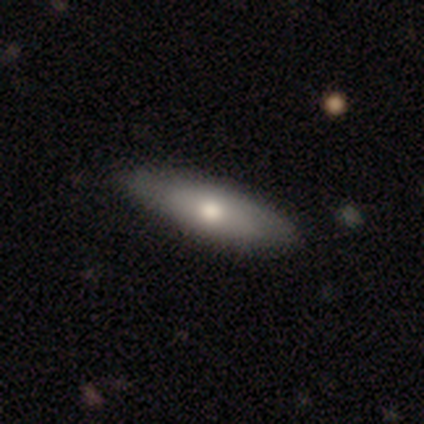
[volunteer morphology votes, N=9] This appears to be a smooth galaxy with no disk features (89%) that is in between round and cigar-shaped (62%). Merging: none (75%).